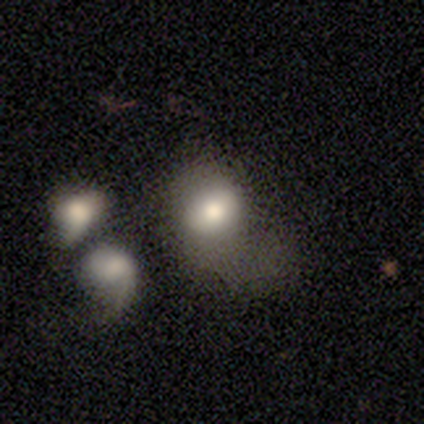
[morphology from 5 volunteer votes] featured or disk 60%, smooth 40%, star or artifact 0%. Down the decision tree: edge-on disk — no (67%); bar — no (100%); spiral arms — yes (100%); spiral arm count — 1 (50%, tied with 2); spiral winding — loose (100%); bulge size — large (50%, tied with moderate); merging — none (40%).